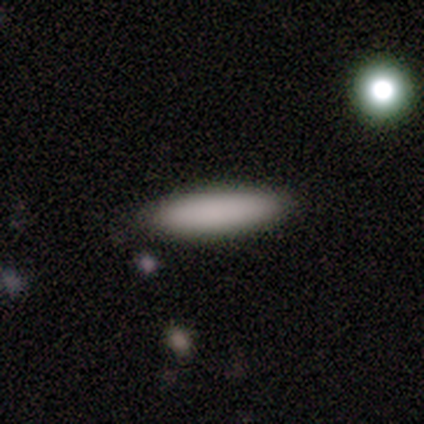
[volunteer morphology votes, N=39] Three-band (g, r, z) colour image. It shows a smooth galaxy with no disk features (87%) that is cigar-shaped (68%). Merging: none (63%).